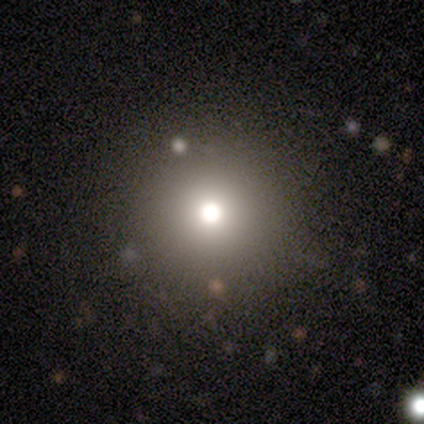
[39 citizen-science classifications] Smooth or featured? smooth (69%)
How rounded? round (100%)
Merging? none (52%)